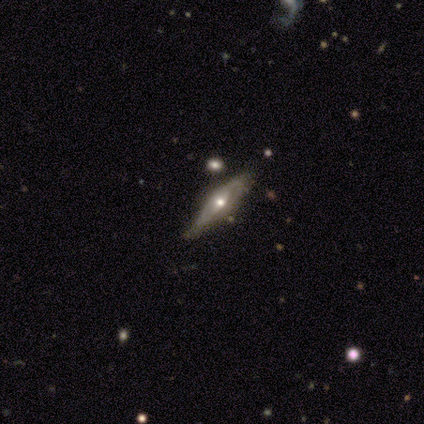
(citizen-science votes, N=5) Overall: featured or disk (60%; smooth 20%). Edge-on disk: no (67%; yes 33%). Bar: weak (100%). Spiral arms: yes (50%, tied with no). Spiral arm count: 2 (100%). Spiral winding: medium (100%). Bulge size: large (50%, tied with moderate). Merging: minor disturbance (75%).